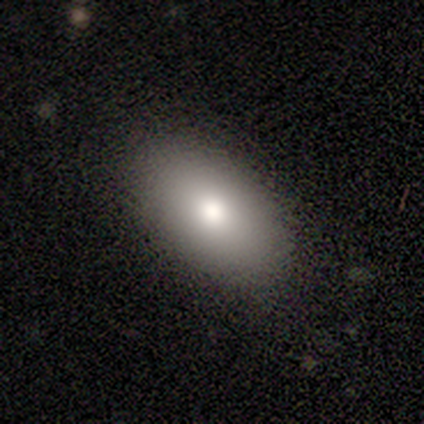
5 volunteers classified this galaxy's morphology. Q: Smooth or featured?
A: smooth (80%); runner-up: featured or disk (20%)
Q: How rounded?
A: in between (100%)
Q: Merging?
A: none (100%)